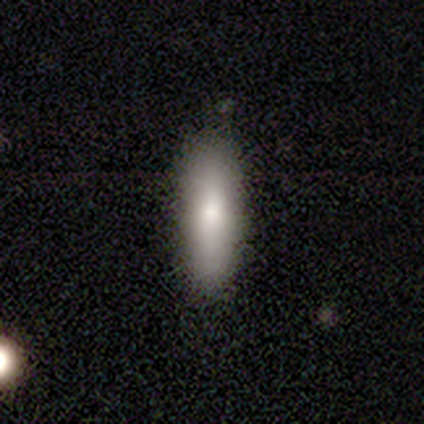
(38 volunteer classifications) A smooth galaxy with no disk features (84%) that is cigar-shaped (72%). Merging: none (82%).